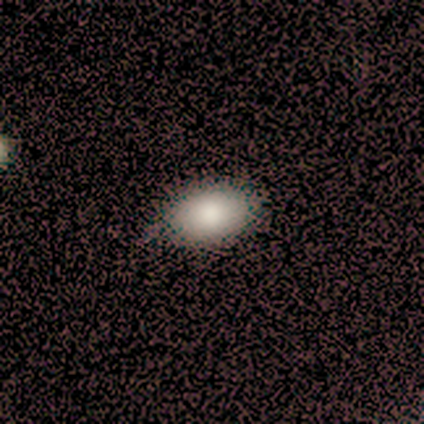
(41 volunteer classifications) Morphology: type=smooth (90%); roundness=in between (89%); merging=none (61%).